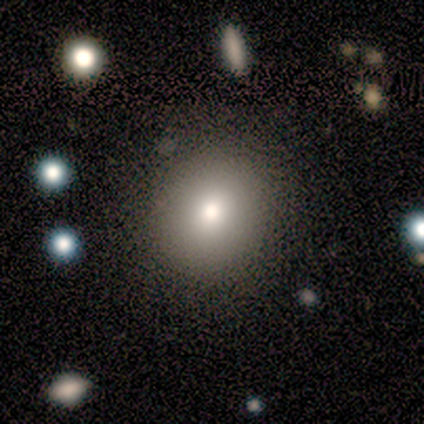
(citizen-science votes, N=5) smooth 80%, star or artifact 20%, featured or disk 0%. Down the decision tree: how rounded — round (75%); merging — none (100%).